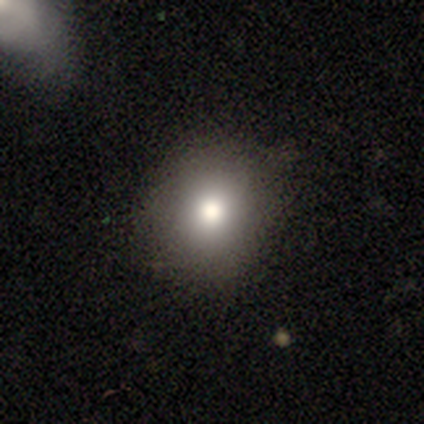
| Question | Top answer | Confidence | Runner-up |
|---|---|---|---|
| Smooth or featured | smooth | 83% | featured or disk (8%) |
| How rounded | round | 90% | in between (10%) |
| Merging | none | 91% | minor disturbance (9%) |